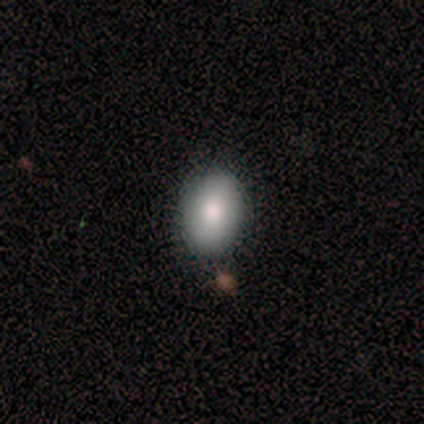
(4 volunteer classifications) Volunteers were most divided on "merging": minor disturbance: 50%, none: 25%, merger: 25%, major disturbance: 0%. More confident: smooth or featured — smooth (100%); how rounded — in between (100%).